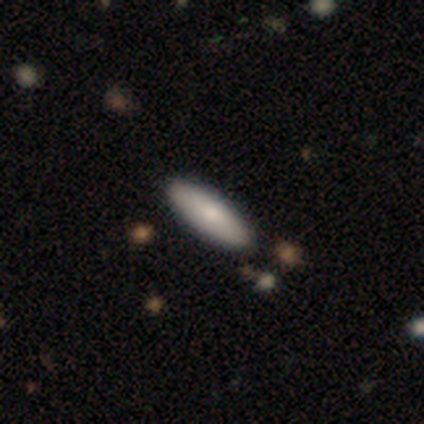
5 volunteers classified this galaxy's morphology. Smooth or featured? 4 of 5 (80%) said smooth. How rounded? 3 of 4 (75%) said in between. Merging? 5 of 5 (100%) said none.